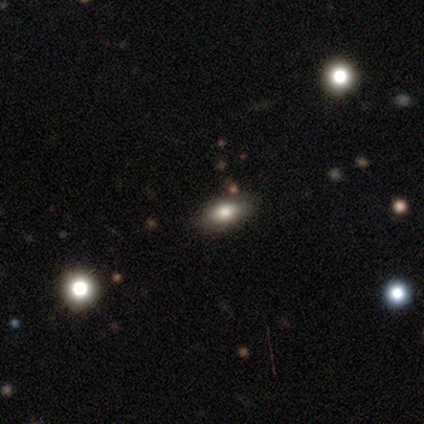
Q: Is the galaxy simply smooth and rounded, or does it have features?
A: smooth — 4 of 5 (80%).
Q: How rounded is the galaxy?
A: in between — 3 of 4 (75%).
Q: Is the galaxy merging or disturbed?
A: none — 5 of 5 (100%).